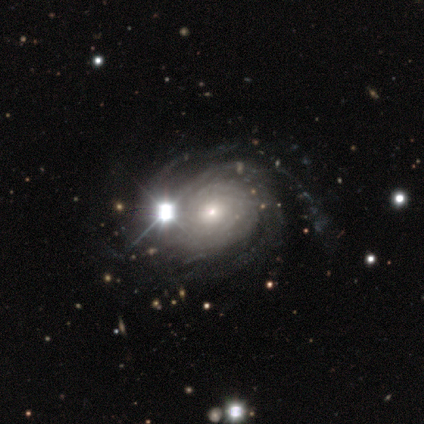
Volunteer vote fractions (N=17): Smooth or featured?
  - featured or disk: 94% *
  - smooth: 6%
  - star or artifact: 0%
Edge-on disk?
  - no: 100% *
  - yes: 0%
Bar?
  - no: 94% *
  - strong: 6%
  - weak: 0%
Spiral arms?
  - yes: 94% *
  - no: 6%
Spiral winding?
  - tight: 93% *
  - medium: 7%
  - loose: 0%
Spiral arm count?
  - can't tell: 47% *
  - 3: 20%
  - more than 4: 20%
  - 4: 13%
  - 1: 0%
  - 2: 0%
Bulge size?
  - small: 81% *
  - moderate: 19%
  - dominant: 0%
  - large: 0%
  - none: 0%
Merging?
  - none: 53% *
  - minor disturbance: 18%
  - merger: 18%
  - major disturbance: 12%